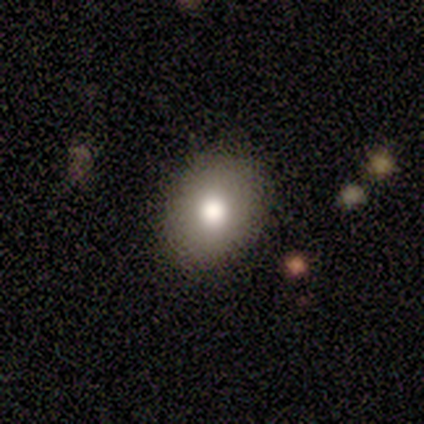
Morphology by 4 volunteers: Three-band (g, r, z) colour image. It shows a smooth galaxy with no disk features (50%, tied with star or artifact) that is round (50%, tied with in between). Merging: none (100%).